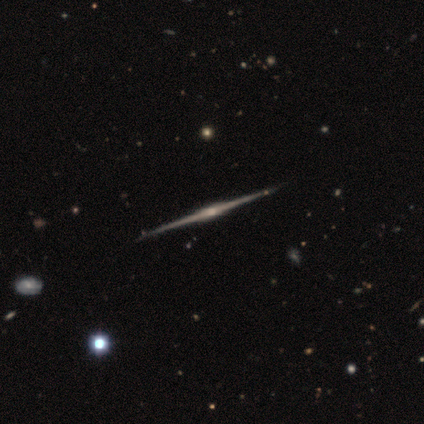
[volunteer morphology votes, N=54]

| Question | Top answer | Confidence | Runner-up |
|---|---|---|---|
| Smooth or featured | featured or disk | 94% | star or artifact (6%) |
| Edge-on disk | yes | 100% | — |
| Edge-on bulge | boxy | 51% | rounded (45%) |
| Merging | none | 92% | minor disturbance (4%) |